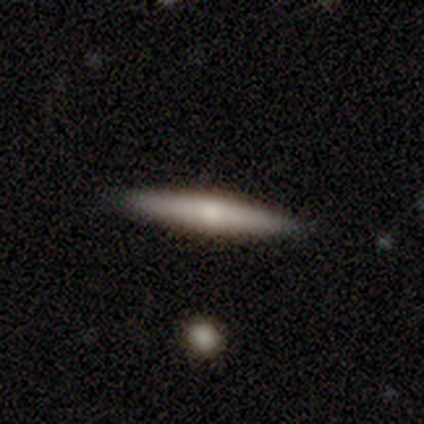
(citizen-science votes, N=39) Smooth or featured: smooth — 56% (featured or disk — 44%)
How rounded: cigar-shaped — 91% (in between — 9%)
Merging: none — 92% (minor disturbance — 8%)